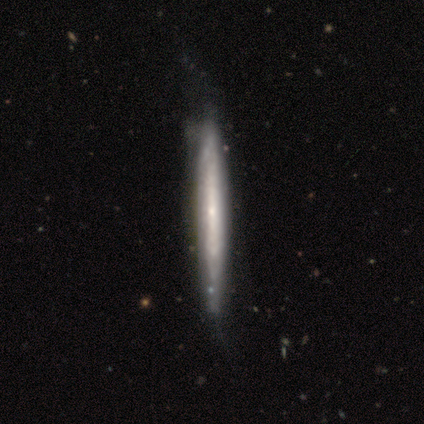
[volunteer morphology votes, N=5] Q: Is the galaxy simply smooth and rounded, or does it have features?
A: featured or disk — 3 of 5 (60%).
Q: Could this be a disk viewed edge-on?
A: yes — 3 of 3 (100%).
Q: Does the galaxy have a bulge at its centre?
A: rounded — 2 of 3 (67%).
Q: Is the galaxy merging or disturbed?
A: none — 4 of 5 (80%).